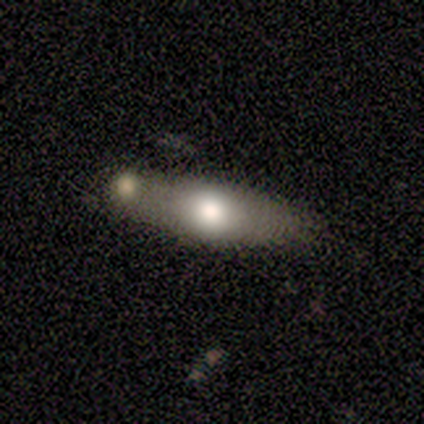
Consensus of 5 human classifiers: Smooth or featured: smooth — 60% (featured or disk — 20%)
How rounded: cigar-shaped — 100%
Merging: none — 100%